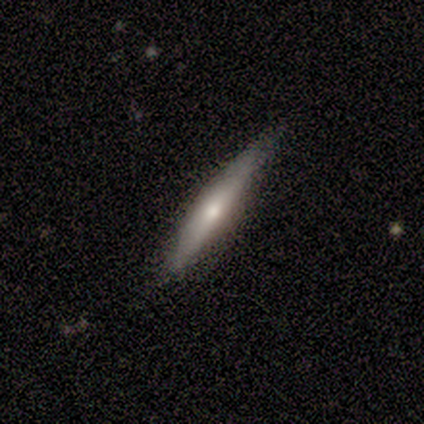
Smooth or featured? smooth (50%, tied with featured or disk)
How rounded? cigar-shaped (100%)
Merging? none (100%)